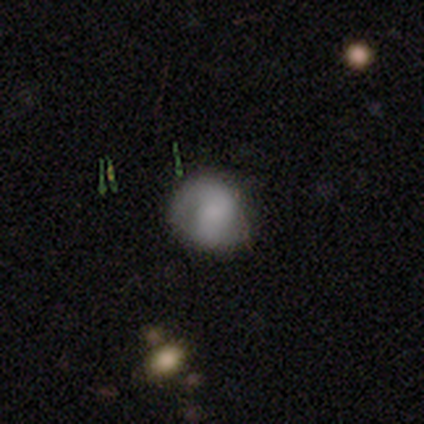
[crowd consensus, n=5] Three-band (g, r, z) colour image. It shows a featured or disk galaxy (80%) with a weak bar (50%, tied with no), 2 (67%) tight (33%, tied with medium and loose) spiral arms (75%) and a moderate central bulge (100%). Merging: none (100%).